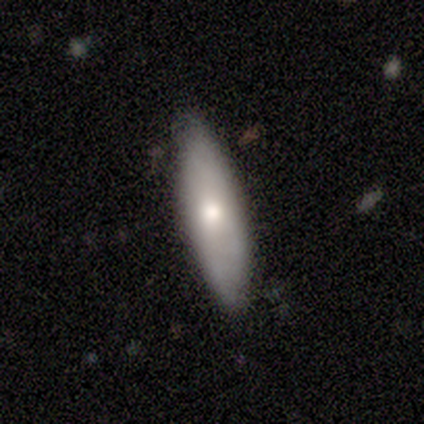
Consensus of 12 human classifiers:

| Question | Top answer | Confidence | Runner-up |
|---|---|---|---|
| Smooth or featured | smooth | 75% | featured or disk (17%) |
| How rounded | cigar-shaped | 56% | in between (44%) |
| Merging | none | 91% | major disturbance (9%) |